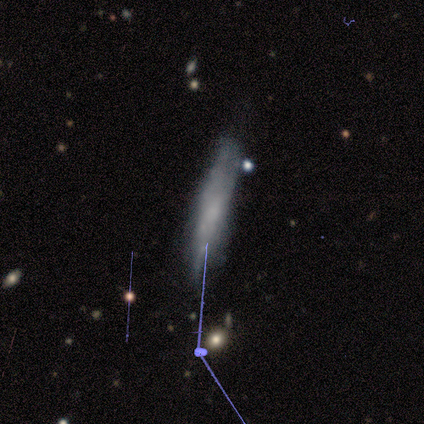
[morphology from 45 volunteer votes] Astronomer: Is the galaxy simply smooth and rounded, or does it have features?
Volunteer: featured or disk — 56% (runner-up: smooth, 36%).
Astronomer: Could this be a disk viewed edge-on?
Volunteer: no — 52% (runner-up: yes, 48%).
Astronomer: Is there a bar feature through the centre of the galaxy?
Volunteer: no — 92%.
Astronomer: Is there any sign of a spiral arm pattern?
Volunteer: no — 54% (runner-up: yes, 46%).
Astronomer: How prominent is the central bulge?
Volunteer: none — 69%.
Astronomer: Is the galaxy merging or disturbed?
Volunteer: none — 66%.